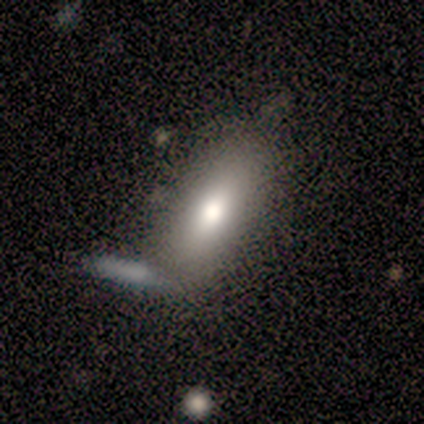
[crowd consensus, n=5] smooth_or_featured: smooth (p=0.80) [alt: star or artifact p=0.20]
how_rounded: in between (p=0.75) [alt: cigar-shaped p=0.25]
merging: none (p=0.50) [alt: minor disturbance p=0.25]